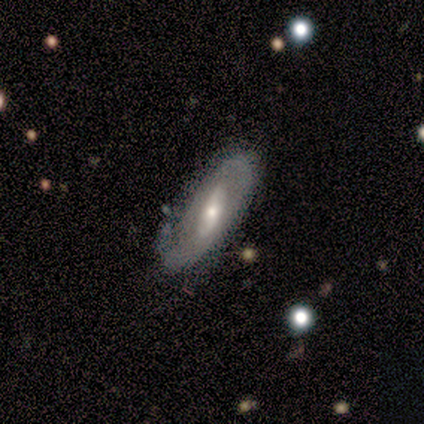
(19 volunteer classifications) This appears to be a featured or disk galaxy (74%) with a weak bar (45%), 2 (56%) tight (56%) spiral arms (82%) and a moderate central bulge (73%). Merging: none (65%).